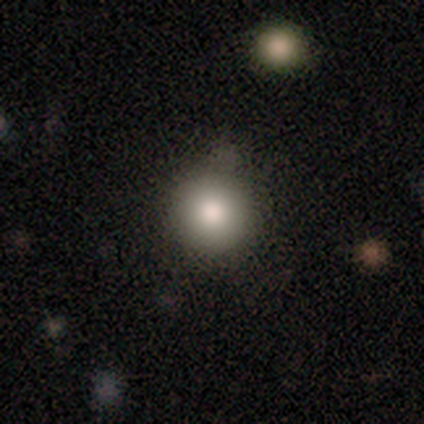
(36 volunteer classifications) smooth_or_featured: smooth (p=0.86) [alt: star or artifact p=0.08]
how_rounded: round (p=0.97) [alt: cigar-shaped p=0.03]
merging: none (p=0.85) [alt: minor disturbance p=0.06]